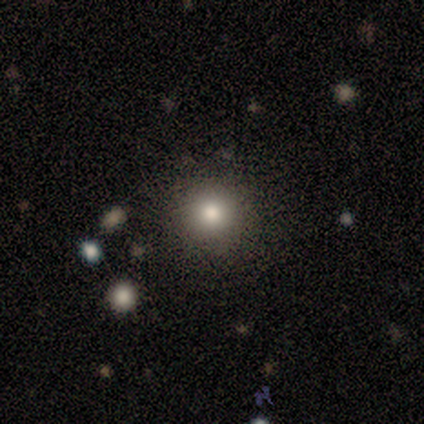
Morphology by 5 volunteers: Smooth or featured? smooth (60%)
How rounded? round (100%)
Merging? none (100%)